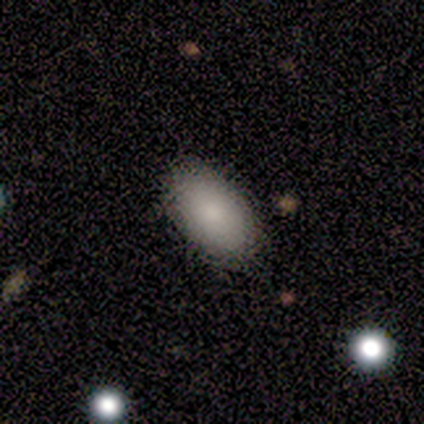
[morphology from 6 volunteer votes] smooth-or-featured: smooth: 100% | featured or disk: 0% | star or artifact: 0%
  how-rounded: in between: 83% | cigar-shaped: 17% | round: 0%
  merging: none: 83% | minor disturbance: 17% | major disturbance: 0% | merger: 0%